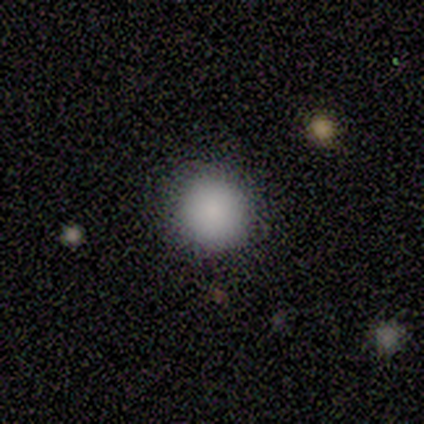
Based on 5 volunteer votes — Smooth or featured?
  - smooth: 100% *
  - featured or disk: 0%
  - star or artifact: 0%
How rounded?
  - round: 100% *
  - in between: 0%
  - cigar-shaped: 0%
Merging?
  - none: 80% *
  - major disturbance: 20%
  - minor disturbance: 0%
  - merger: 0%